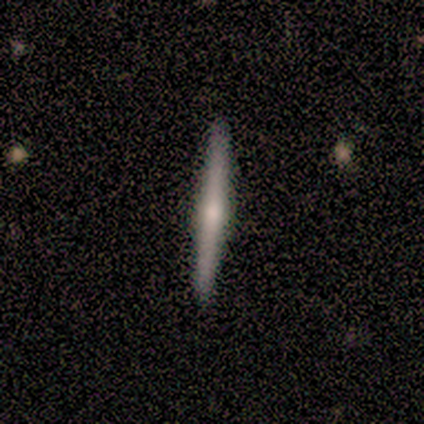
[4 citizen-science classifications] Morphology: type=smooth (50%, tied with featured or disk); roundness=cigar-shaped (100%); merging=none (100%).